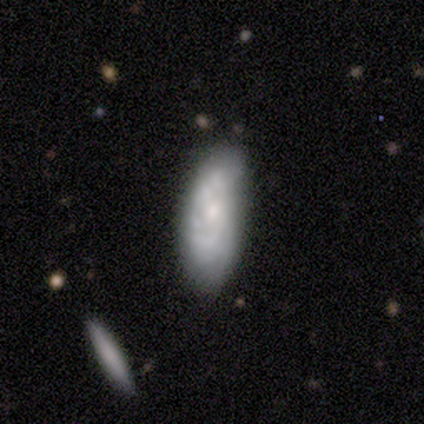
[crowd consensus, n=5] Q: Smooth or featured?
A: featured or disk (60%); runner-up: smooth (40%)
Q: Edge-on disk?
A: no (67%); runner-up: yes (33%)
Q: Bar?
A: no (100%)
Q: Spiral arms?
A: yes (50%); tied with: no (50%)
Q: Spiral winding?
A: tight (100%)
Q: Spiral arm count?
A: can't tell (100%)
Q: Bulge size?
A: large (50%); tied with: small (50%)
Q: Merging?
A: minor disturbance (40%); runner-up: none (20%)